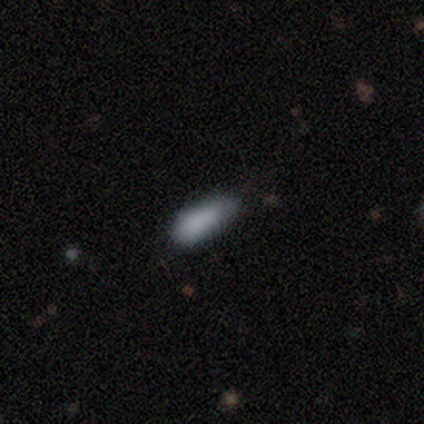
smooth_or_featured: smooth (p=1.00)
how_rounded: in between (p=0.80) [alt: cigar-shaped p=0.20]
merging: none (p=0.60) [alt: minor disturbance p=0.40]